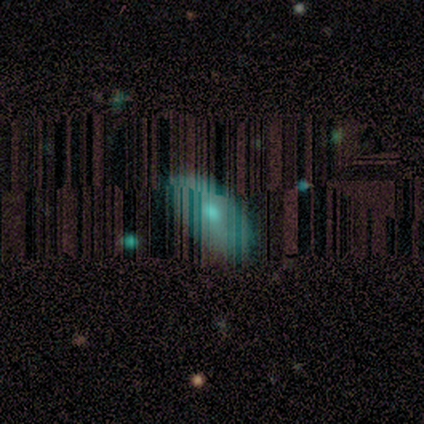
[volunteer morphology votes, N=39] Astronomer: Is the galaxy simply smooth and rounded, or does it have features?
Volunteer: smooth — 46% (runner-up: featured or disk, 31%).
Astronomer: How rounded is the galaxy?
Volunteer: in between — 94%.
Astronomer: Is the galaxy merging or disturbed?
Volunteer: none — 90%.